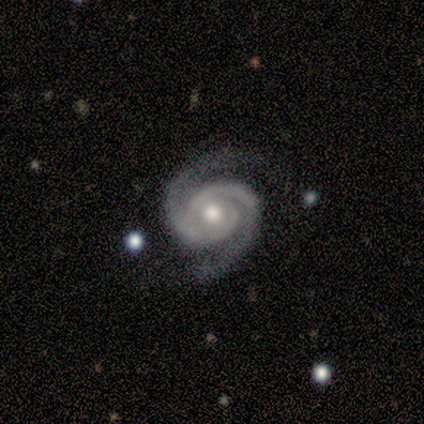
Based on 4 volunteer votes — smooth_or_featured: featured or disk (p=0.75) [alt: smooth p=0.25]
disk_edge_on: no (p=1.00)
bar: no (p=1.00)
has_spiral_arms: yes (p=1.00)
spiral_winding: tight (p=0.33) [tied with: medium p=0.33, loose p=0.33]
spiral_arm_count: 2 (p=1.00)
bulge_size: moderate (p=1.00)
merging: none (p=0.75) [alt: major disturbance p=0.25]